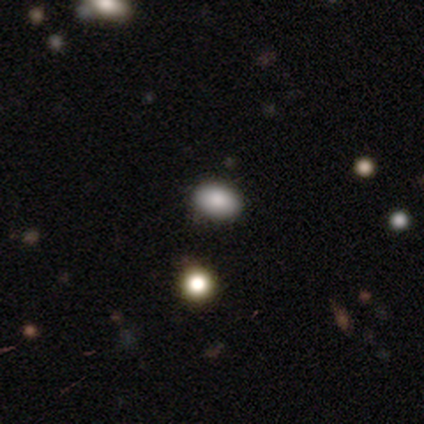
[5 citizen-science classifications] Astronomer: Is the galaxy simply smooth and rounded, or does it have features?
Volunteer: smooth — 60% (runner-up: star or artifact, 40%).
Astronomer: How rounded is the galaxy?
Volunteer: in between — 67%.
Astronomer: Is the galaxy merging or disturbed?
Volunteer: none — 100%.